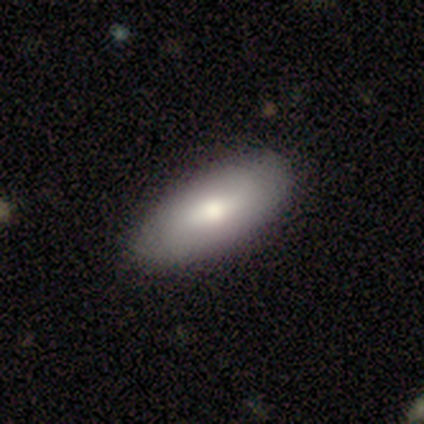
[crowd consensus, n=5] smooth_or_featured: smooth (p=0.80) [alt: star or artifact p=0.20]
how_rounded: in between (p=1.00)
merging: none (p=1.00)